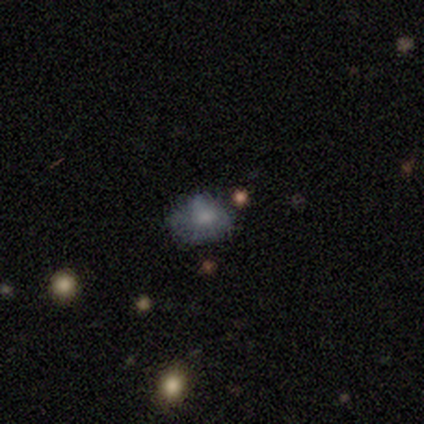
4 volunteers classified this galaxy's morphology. smooth 75%, star or artifact 25%, featured or disk 0%. Down the decision tree: how rounded — round (67%); merging — none (100%).